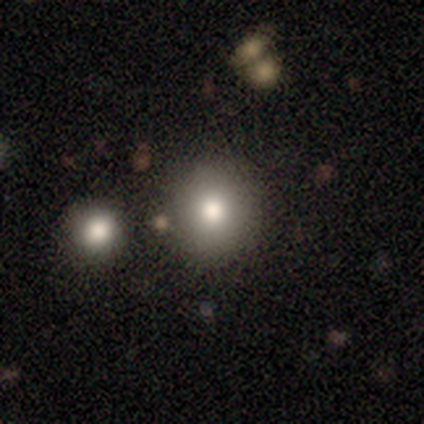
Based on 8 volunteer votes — A smooth galaxy with no disk features (62%) that is round (100%). Merging: none (86%).